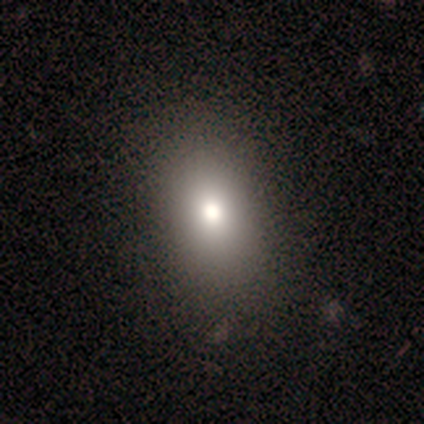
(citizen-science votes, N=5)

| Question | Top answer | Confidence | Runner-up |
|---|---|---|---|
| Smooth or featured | smooth | 40% | tied: star or artifact (40%) |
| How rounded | in between | 100% | — |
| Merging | none | 100% | — |